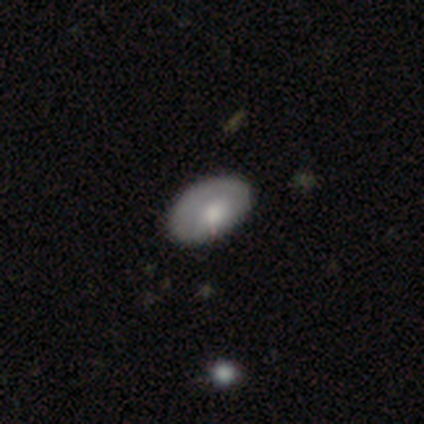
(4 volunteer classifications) This is likely a smooth galaxy (75%). How rounded: likely in between (67%). Merging: clearly none (100%).